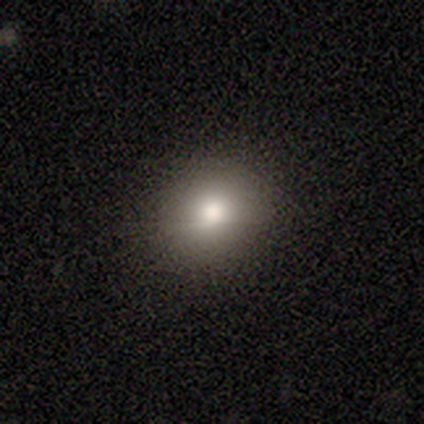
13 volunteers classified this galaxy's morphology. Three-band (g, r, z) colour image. It shows a smooth galaxy with no disk features (62%) that is round (88%). Merging: none (100%).